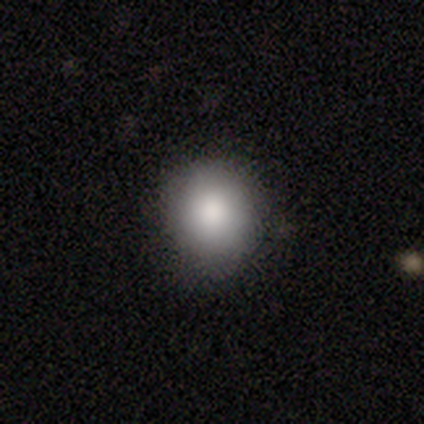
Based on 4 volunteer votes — This is clearly a smooth galaxy (100%). How rounded: clearly round (100%). Merging: clearly none (100%).